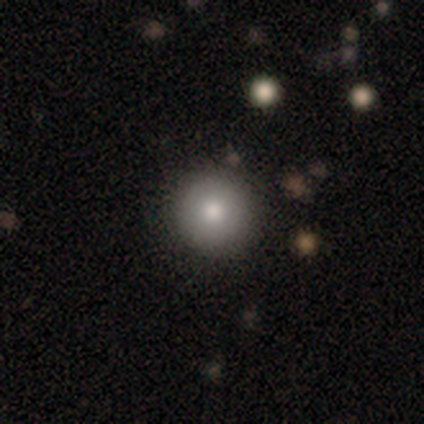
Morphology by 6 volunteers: A smooth galaxy with no disk features (83%) that is round (100%).

Vote fractions:
- Smooth or featured? smooth: 83% / star or artifact: 17% / featured or disk: 0%
- How rounded? round: 100% / in between: 0% / cigar-shaped: 0%
- Merging? none: 100% / minor disturbance: 0% / major disturbance: 0% / merger: 0%